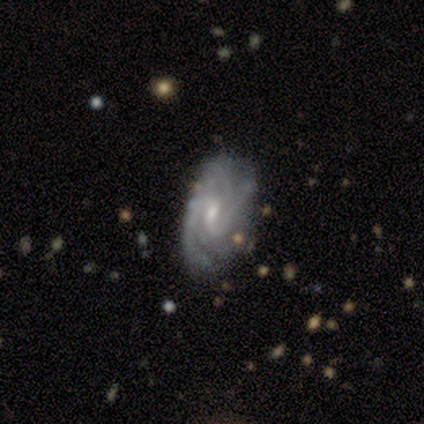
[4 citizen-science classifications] A featured or disk galaxy (100%) with a strong bar (50%), 3 (50%) tight (50%, tied with medium) spiral arms (100%) and a moderate central bulge (75%). Merging: none (100%).